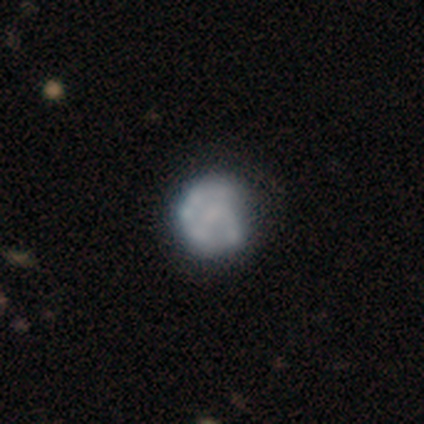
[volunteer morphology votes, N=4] This is possibly a smooth galaxy (50%, tied with featured or disk). How rounded: clearly round (100%). Merging: possibly none (50%, tied with minor disturbance).